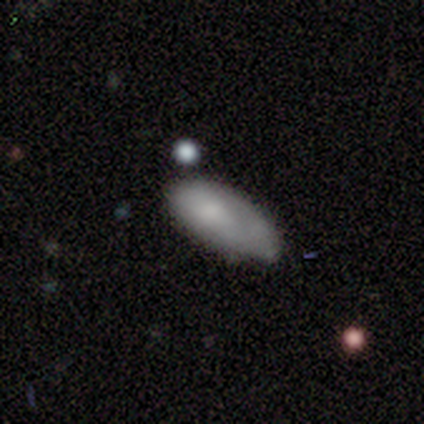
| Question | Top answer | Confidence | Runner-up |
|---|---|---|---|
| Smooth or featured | smooth | 82% | star or artifact (11%) |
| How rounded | in between | 84% | cigar-shaped (13%) |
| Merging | none | 44% | minor disturbance (32%) |